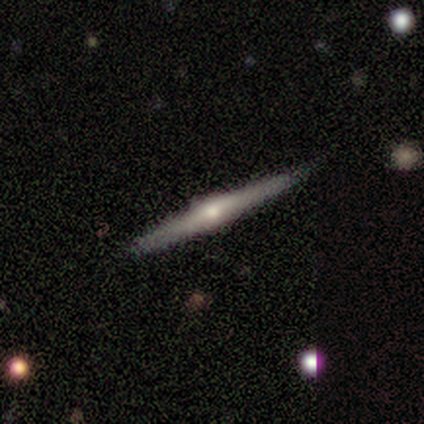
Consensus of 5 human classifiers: featured or disk 100%, smooth 0%, star or artifact 0%. Down the decision tree: edge-on disk — yes (100%); edge-on bulge — rounded (80%); merging — none (100%).